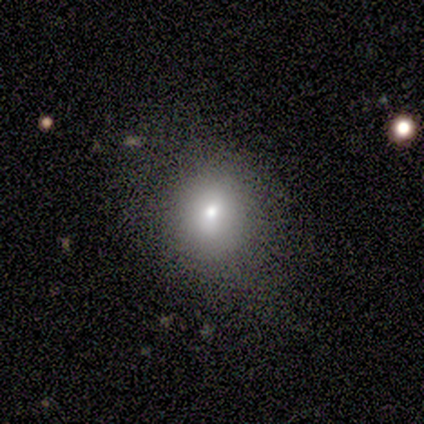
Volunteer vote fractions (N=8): Smooth or featured? smooth (62%)
How rounded? round (80%)
Merging? none (83%)